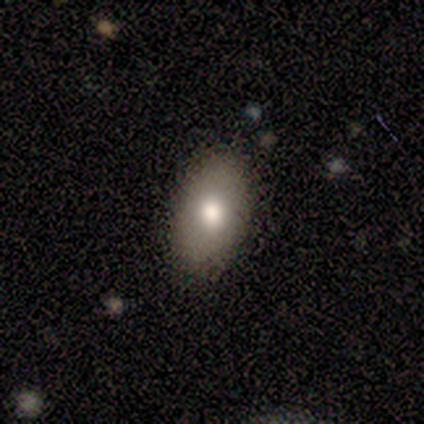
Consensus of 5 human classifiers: Overall: smooth (100%). How rounded: in between (100%). Merging: none (60%; minor disturbance 40%).